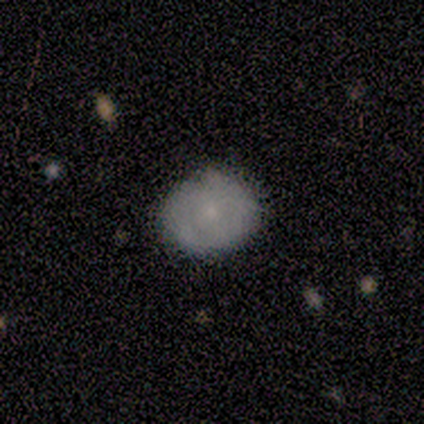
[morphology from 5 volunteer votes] Smooth or featured? smooth (60%)
How rounded? round (67%)
Merging? none (80%)